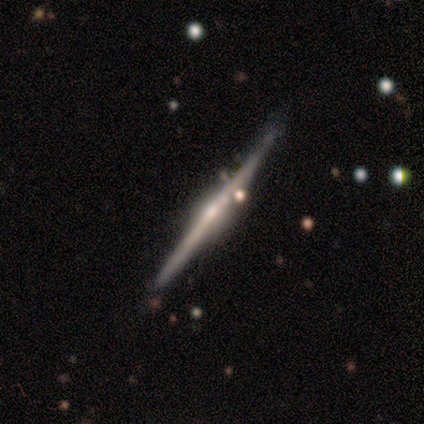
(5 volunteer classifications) Smooth or featured: featured or disk — 60% (smooth — 40%)
Edge-on disk: yes — 100%
Edge-on bulge: rounded — 100%
Merging: none — 60% (minor disturbance — 40%)